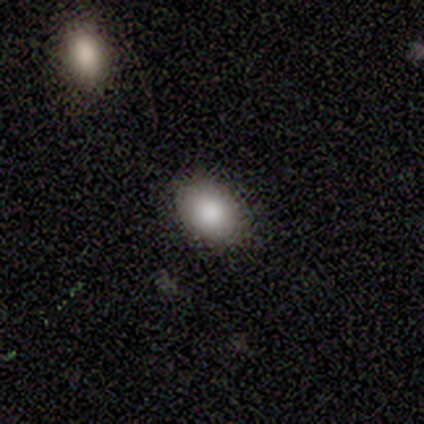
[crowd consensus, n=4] Overall: smooth (75%). How rounded: in between (100%). Merging: none (75%).